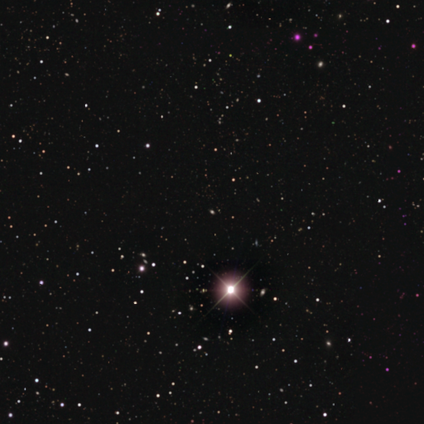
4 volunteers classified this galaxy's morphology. star or artifact 100%, smooth 0%, featured or disk 0%.